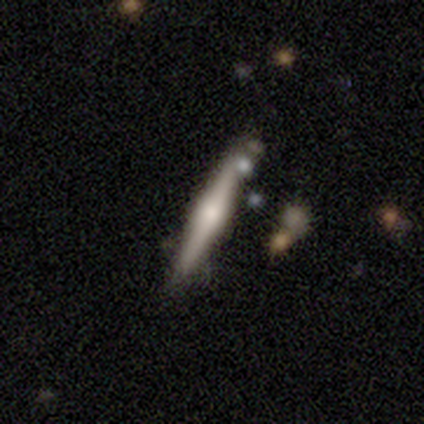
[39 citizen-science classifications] smooth_or_featured: featured or disk (p=0.69) [alt: smooth p=0.28]
disk_edge_on: yes (p=0.96) [alt: no p=0.04]
edge_on_bulge: rounded (p=0.85) [alt: boxy p=0.12]
merging: none (p=0.53) [alt: minor disturbance p=0.21]